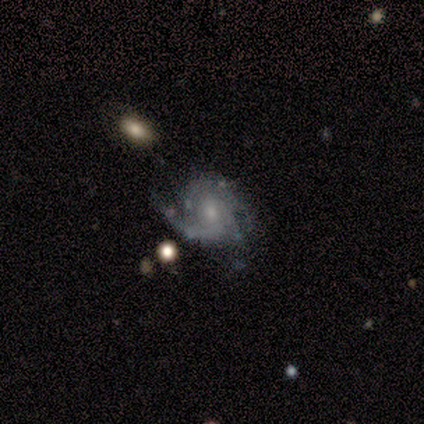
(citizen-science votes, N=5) This is clearly a featured or disk galaxy (80%). It is clearly not viewed edge-on (100%). Bar: possibly weak (50%, tied with no). Spiral arm pattern: clearly yes (100%). Spiral arm count: possibly 3 (50%, tied with can't tell). Spiral winding: possibly tight (50%, tied with medium). Central bulge: likely small (75%). Merging: possibly none (50%).